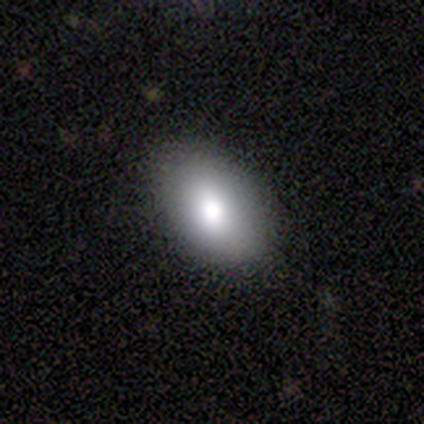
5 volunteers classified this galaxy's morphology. This appears to be a smooth galaxy with no disk features (100%) that is in between round and cigar-shaped (80%). Merging: none (100%).